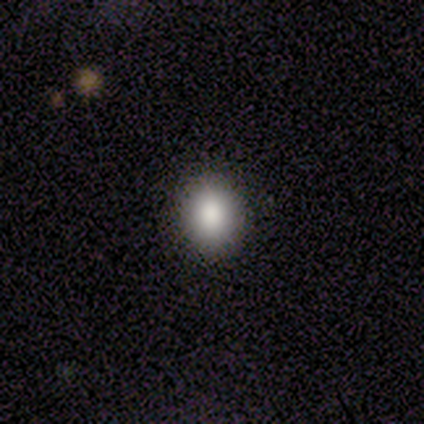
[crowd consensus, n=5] Smooth or featured?
  - smooth: 80% *
  - featured or disk: 20%
  - star or artifact: 0%
How rounded?
  - in between: 75% *
  - round: 25%
  - cigar-shaped: 0%
Merging?
  - none: 100% *
  - minor disturbance: 0%
  - major disturbance: 0%
  - merger: 0%